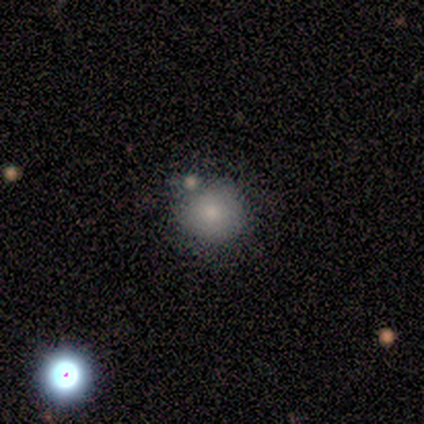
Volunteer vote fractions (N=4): smooth 100%, featured or disk 0%, star or artifact 0%. Down the decision tree: how rounded — round (75%); merging — none (100%).